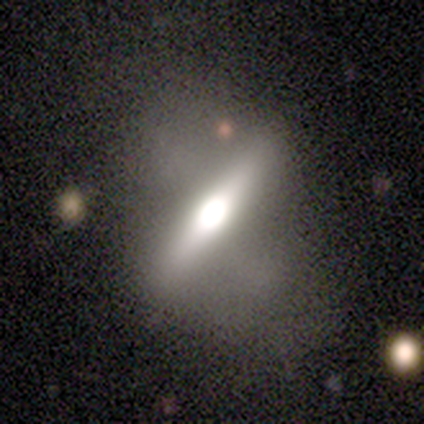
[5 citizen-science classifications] smooth-or-featured: featured or disk: 60% | smooth: 40% | star or artifact: 0%
  disk-edge-on: yes: 100% | no: 0%
    edge-on-bulge: rounded: 100% | boxy: 0% | none: 0%
  merging: minor disturbance: 60% | none: 40% | major disturbance: 0% | merger: 0%